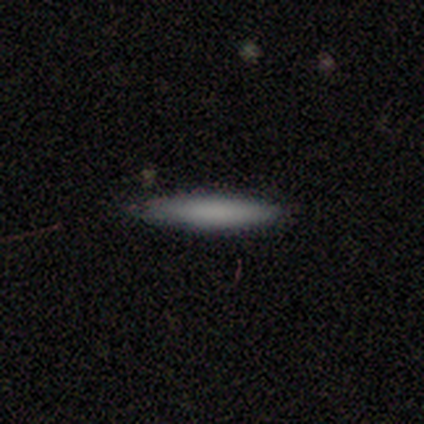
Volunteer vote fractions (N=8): smooth-or-featured: smooth: 88% | star or artifact: 12% | featured or disk: 0%
  how-rounded: cigar-shaped: 100% | round: 0% | in between: 0%
  merging: none: 100% | minor disturbance: 0% | major disturbance: 0% | merger: 0%